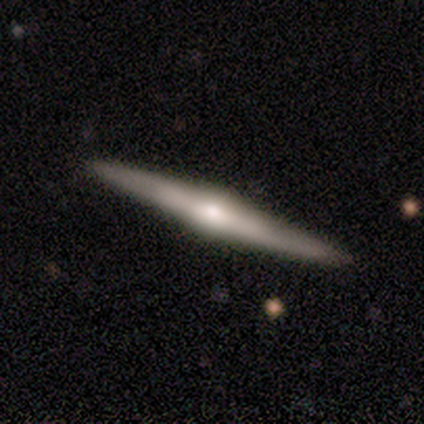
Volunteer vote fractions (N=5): smooth-or-featured: featured or disk: 80% | smooth: 20% | star or artifact: 0%
  disk-edge-on: yes: 100% | no: 0%
    edge-on-bulge: rounded: 75% | boxy: 25% | none: 0%
  merging: none: 100% | minor disturbance: 0% | major disturbance: 0% | merger: 0%